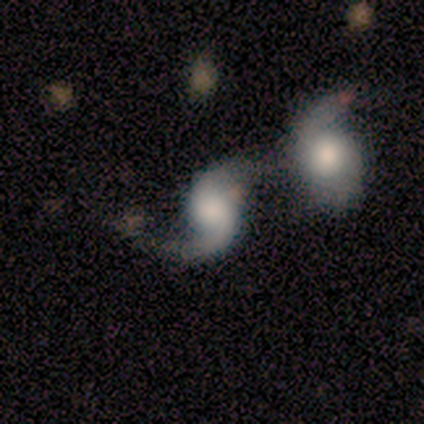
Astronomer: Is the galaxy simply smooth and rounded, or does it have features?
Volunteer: featured or disk — 80%.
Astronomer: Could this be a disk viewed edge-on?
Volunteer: no — 100%.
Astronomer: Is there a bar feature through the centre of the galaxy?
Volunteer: weak — 50%, tied with no at 50%.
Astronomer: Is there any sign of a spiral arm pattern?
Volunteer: yes — 100%.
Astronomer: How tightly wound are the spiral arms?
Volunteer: loose — 75%.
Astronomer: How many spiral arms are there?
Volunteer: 2 — 75%.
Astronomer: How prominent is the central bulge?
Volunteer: small — 100%.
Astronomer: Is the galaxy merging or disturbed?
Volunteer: major disturbance — 40% (runner-up: none, 20%).